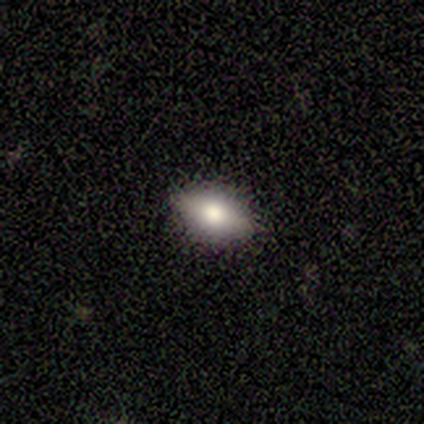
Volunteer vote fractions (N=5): smooth 60%, featured or disk 20%, star or artifact 20%. Down the decision tree: how rounded — cigar-shaped (67%); merging — none (75%).